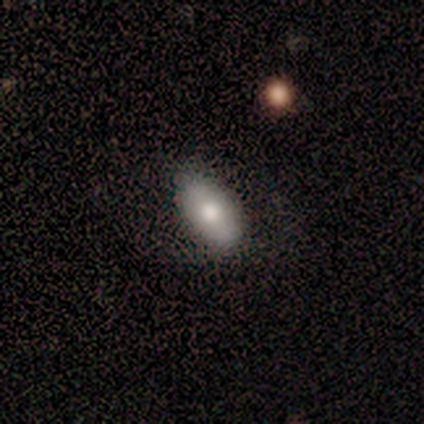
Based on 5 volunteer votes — Q: Smooth or featured?
A: smooth (60%); runner-up: featured or disk (40%)
Q: How rounded?
A: in between (67%); runner-up: cigar-shaped (33%)
Q: Merging?
A: none (60%); runner-up: minor disturbance (20%)